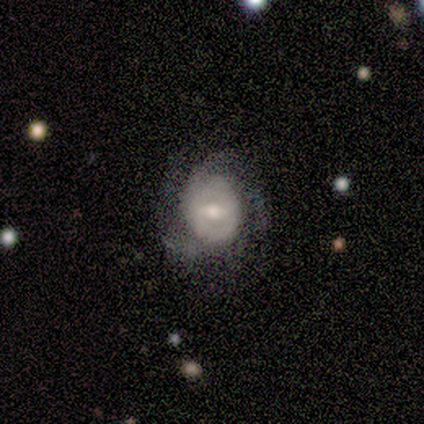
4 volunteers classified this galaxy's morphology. Overall: featured or disk (75%). Edge-on disk: no (100%). Bar: weak (67%; no 33%). Spiral arms: yes (100%). Spiral arm count: can't tell (67%; 3 33%). Spiral winding: medium (100%). Bulge size: small (100%). Merging: none (75%).